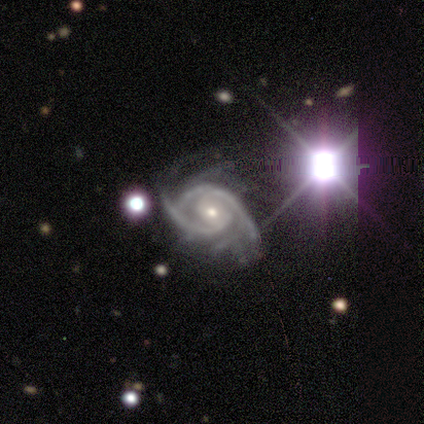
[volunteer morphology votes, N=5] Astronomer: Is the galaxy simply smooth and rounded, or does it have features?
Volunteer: featured or disk — 100%.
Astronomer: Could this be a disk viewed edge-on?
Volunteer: no — 100%.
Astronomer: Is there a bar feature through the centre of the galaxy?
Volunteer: weak — 40%, tied with no at 40%.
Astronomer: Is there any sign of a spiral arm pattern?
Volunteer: yes — 100%.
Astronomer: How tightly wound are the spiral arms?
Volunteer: medium — 60% (runner-up: tight, 40%).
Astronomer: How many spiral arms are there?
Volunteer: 2 — 60%.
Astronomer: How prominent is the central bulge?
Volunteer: small — 80%.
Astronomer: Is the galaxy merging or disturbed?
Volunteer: none — 60%.